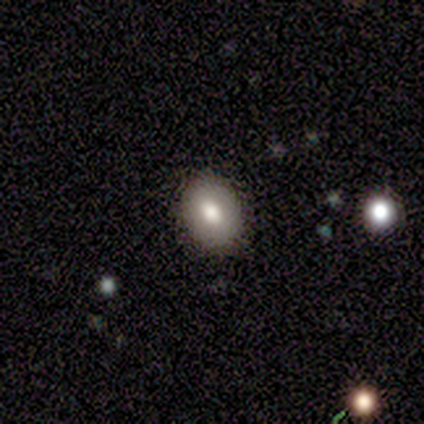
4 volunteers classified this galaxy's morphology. Overall: smooth (75%). How rounded: round (67%; in between 33%). Merging: none (100%).